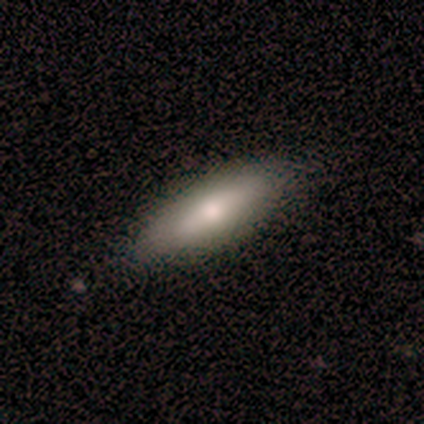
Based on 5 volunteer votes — Morphology: type=smooth (60%); roundness=in between (67%); merging=none (100%).